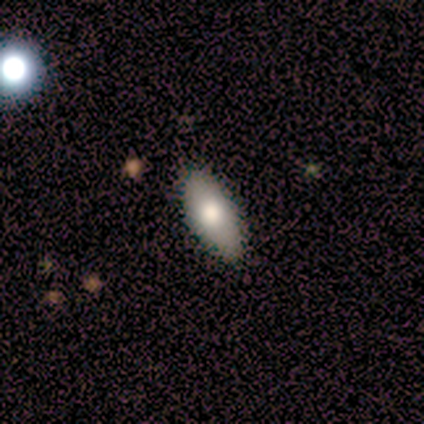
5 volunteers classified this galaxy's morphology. A smooth galaxy with no disk features (80%) that is in between round and cigar-shaped (75%).

Vote fractions:
- Smooth or featured? smooth: 80% / featured or disk: 20% / star or artifact: 0%
- How rounded? in between: 75% / cigar-shaped: 25% / round: 0%
- Merging? none: 100% / minor disturbance: 0% / major disturbance: 0% / merger: 0%